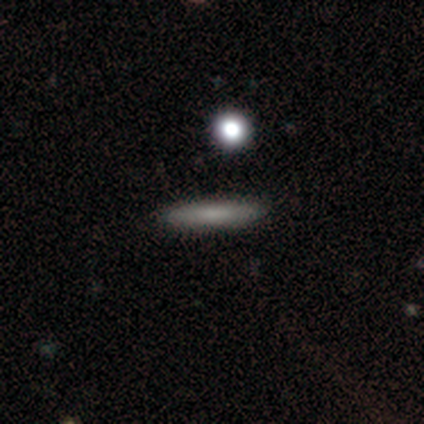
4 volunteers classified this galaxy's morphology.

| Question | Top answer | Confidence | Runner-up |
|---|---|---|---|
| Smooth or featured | featured or disk | 50% | smooth (25%) |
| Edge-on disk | yes | 50% | tied: no (50%) |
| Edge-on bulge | none | 100% | — |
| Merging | none | 67% | merger (33%) |